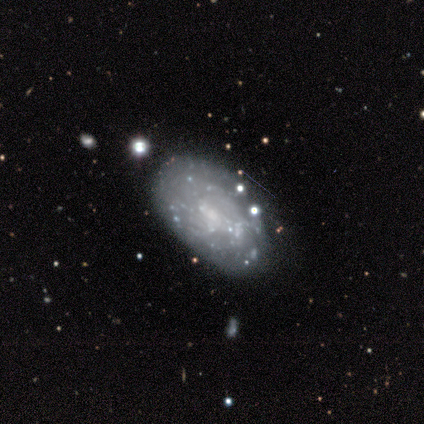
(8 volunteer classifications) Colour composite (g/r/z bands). It shows a featured or disk galaxy (100%) with no bar (100%), no spiral arms (100%) and no central bulge (62%). Merging: none (62%).